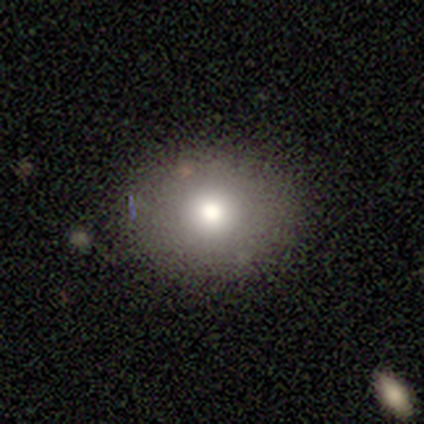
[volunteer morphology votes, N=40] smooth_or_featured: smooth (p=0.75) [alt: featured or disk p=0.17]
how_rounded: round (p=0.67) [alt: in between p=0.30]
merging: none (p=0.92) [alt: minor disturbance p=0.08]